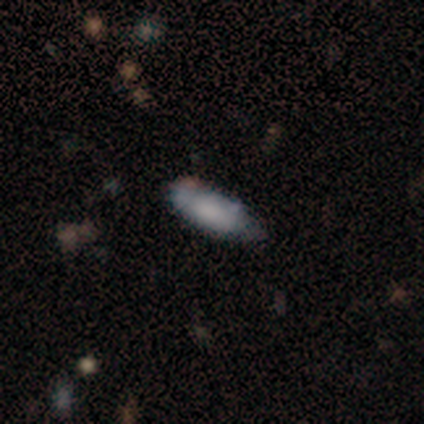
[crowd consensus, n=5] Morphology: type=smooth (80%); roundness=cigar-shaped (75%); merging=none (75%).